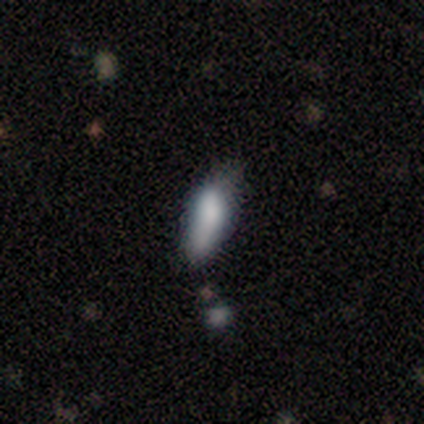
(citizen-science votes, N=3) smooth-or-featured: smooth: 67% | featured or disk: 33% | star or artifact: 0%
  how-rounded: in between: 100% | round: 0% | cigar-shaped: 0%
  merging: minor disturbance: 67% | none: 33% | major disturbance: 0% | merger: 0%